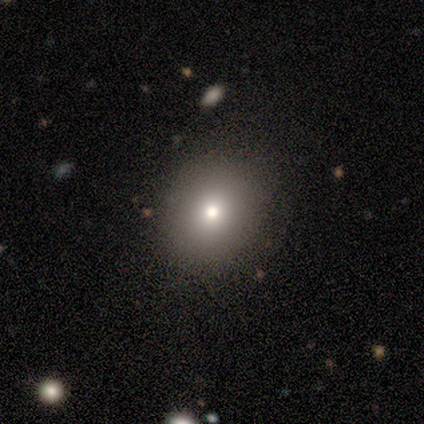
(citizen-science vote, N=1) Smooth or featured? star or artifact (100%)